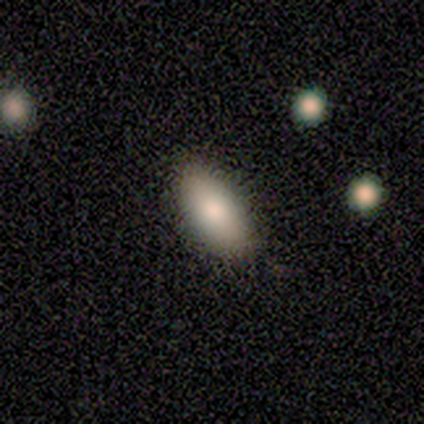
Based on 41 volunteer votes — Smooth or featured?
  - smooth: 90% *
  - featured or disk: 7%
  - star or artifact: 2%
How rounded?
  - in between: 100% *
  - round: 0%
  - cigar-shaped: 0%
Merging?
  - none: 68% *
  - minor disturbance: 10%
  - major disturbance: 2%
  - merger: 2%